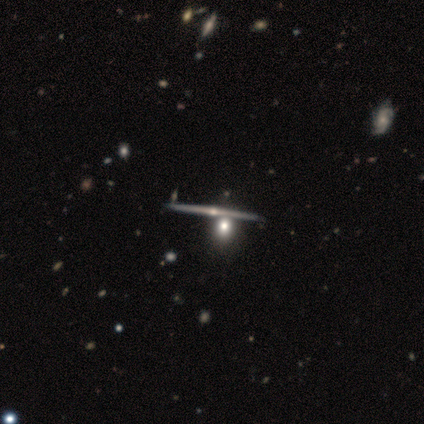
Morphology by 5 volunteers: Smooth or featured? 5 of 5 (100%) said featured or disk. Edge-on disk? 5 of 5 (100%) said yes. Edge-on bulge? 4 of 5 (80%) said rounded. Merging? 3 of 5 (60%) said none.